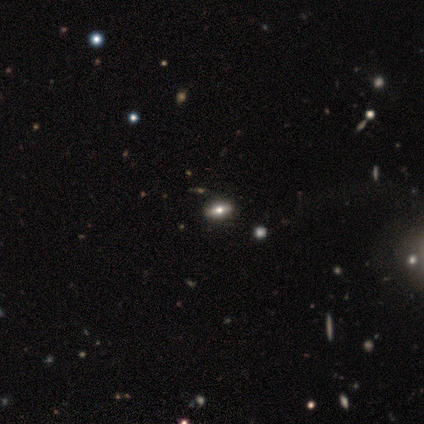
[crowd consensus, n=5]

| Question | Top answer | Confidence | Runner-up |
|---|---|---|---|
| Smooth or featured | smooth | 40% | tied: featured or disk (40%) |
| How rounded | in between | 100% | — |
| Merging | none | 50% | tied: minor disturbance (50%) |